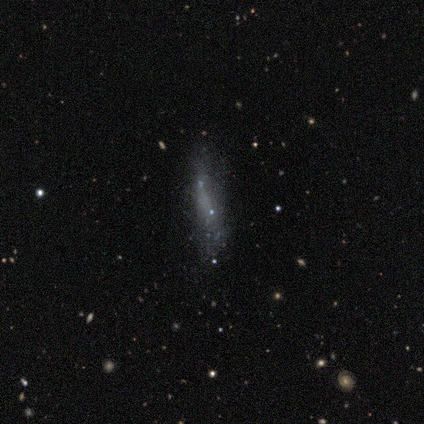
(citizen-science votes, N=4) Smooth or featured? smooth (50%)
How rounded? cigar-shaped (100%)
Merging? none (33%, tied with minor disturbance and major disturbance)